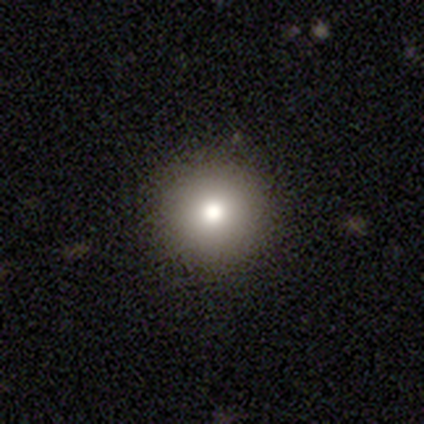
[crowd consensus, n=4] Smooth or featured? smooth (75%)
How rounded? round (100%)
Merging? none (100%)